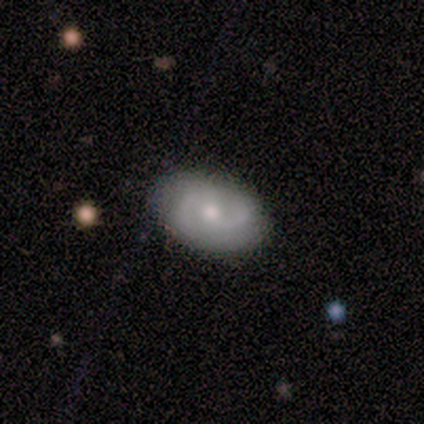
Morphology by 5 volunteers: smooth_or_featured: featured or disk (p=0.80) [alt: smooth p=0.20]
disk_edge_on: yes (p=0.50) [tied with: no p=0.50]
edge_on_bulge: rounded (p=1.00)
merging: none (p=0.60) [alt: minor disturbance p=0.20]